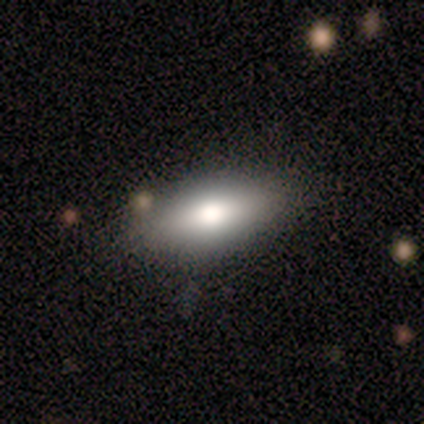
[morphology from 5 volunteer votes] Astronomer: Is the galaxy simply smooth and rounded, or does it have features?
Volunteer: smooth — 80%.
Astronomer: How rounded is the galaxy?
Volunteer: in between — 100%.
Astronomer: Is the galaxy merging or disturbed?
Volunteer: none — 100%.